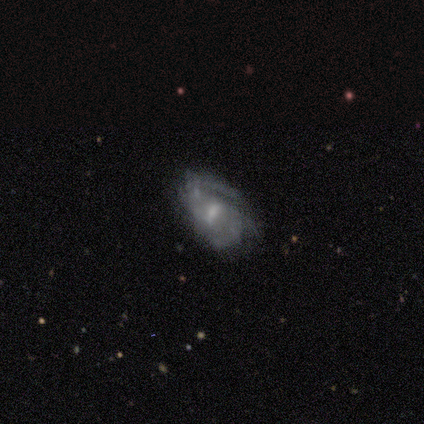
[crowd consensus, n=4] This appears to be a smooth galaxy with no disk features (50%, tied with featured or disk) that is in between round and cigar-shaped (100%). Merging: major disturbance (50%).